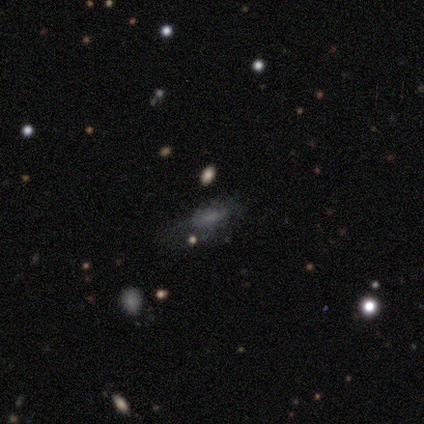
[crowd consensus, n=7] Overall: smooth (86%). How rounded: in between (83%). Merging: major disturbance (50%; none 33%).